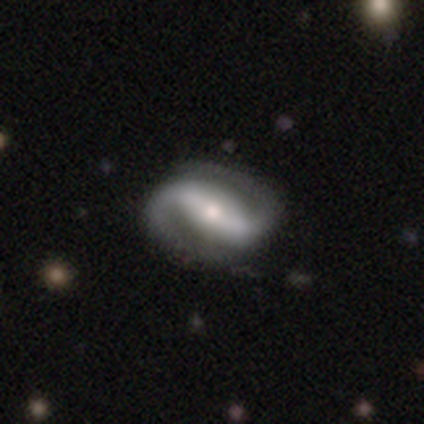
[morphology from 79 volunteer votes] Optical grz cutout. It shows a featured or disk galaxy (96%) with a strong bar (77%), 2 (99%) tight (39%, tied with medium) spiral arms (99%) and a moderate central bulge (51%). Merging: none (41%).